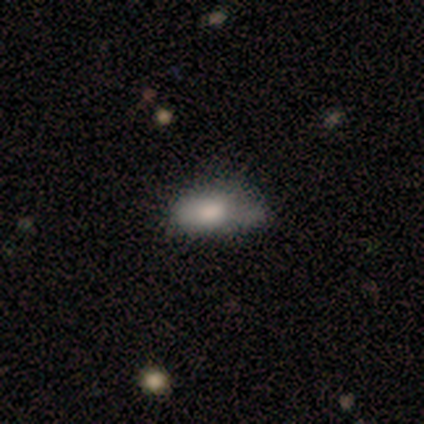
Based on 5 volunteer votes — Volunteers were most divided on "merging" (2-way tie): none: 40%, merger: 40%, minor disturbance: 20%, major disturbance: 0%. More confident: how rounded — in between (100%); smooth or featured — smooth (80%).